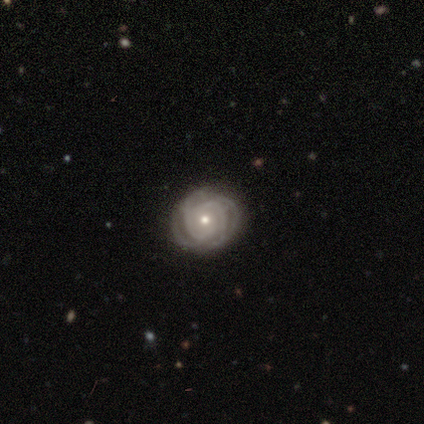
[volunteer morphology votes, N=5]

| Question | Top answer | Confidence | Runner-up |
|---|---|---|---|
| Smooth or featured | featured or disk | 80% | star or artifact (20%) |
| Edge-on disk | no | 100% | — |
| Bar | no | 50% | strong (25%) |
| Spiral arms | yes | 100% | — |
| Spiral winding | tight | 50% | medium (25%) |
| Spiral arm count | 4 | 100% | — |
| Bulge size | small | 75% | moderate (25%) |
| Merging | none | 75% | minor disturbance (25%) |